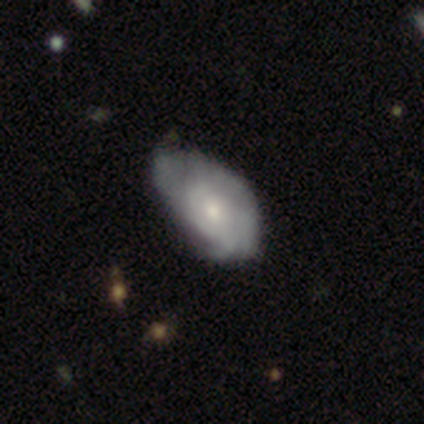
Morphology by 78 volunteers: smooth_or_featured: featured or disk (p=0.63) [alt: smooth p=0.32]
disk_edge_on: no (p=0.98) [alt: yes p=0.02]
bar: no (p=0.85) [alt: weak p=0.15]
has_spiral_arms: yes (p=0.69) [alt: no p=0.31]
spiral_winding: tight (p=0.64) [alt: medium p=0.27]
spiral_arm_count: can't tell (p=0.58) [alt: 3 p=0.18]
bulge_size: small (p=0.48) [alt: moderate p=0.44]
merging: minor disturbance (p=0.26) [alt: none p=0.19]